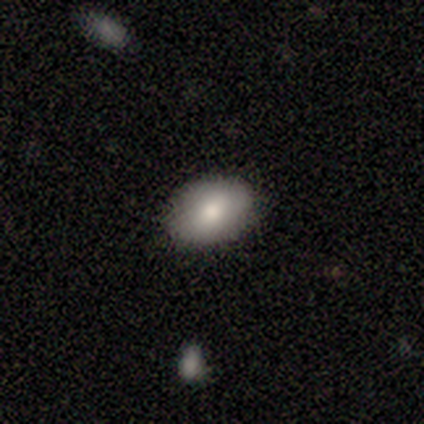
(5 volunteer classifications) Smooth or featured? 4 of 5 (80%) said smooth. How rounded? 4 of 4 (100%) said in between. Merging? 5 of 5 (100%) said none.